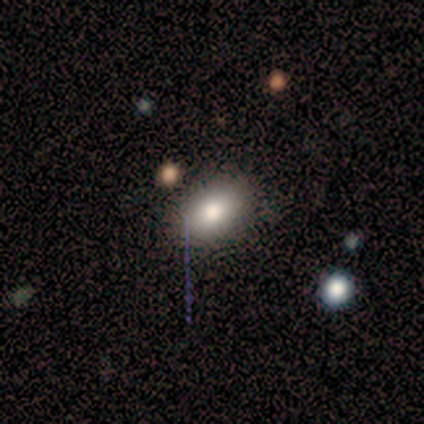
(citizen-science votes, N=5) Smooth or featured?
  - smooth: 80% *
  - star or artifact: 20%
  - featured or disk: 0%
How rounded?
  - in between: 100% *
  - round: 0%
  - cigar-shaped: 0%
Merging?
  - none: 75% *
  - minor disturbance: 25%
  - major disturbance: 0%
  - merger: 0%